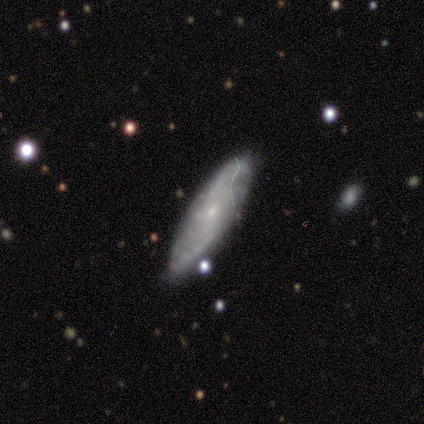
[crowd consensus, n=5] smooth_or_featured: smooth (p=0.40) [tied with: featured or disk p=0.40]
how_rounded: in between (p=0.50) [tied with: cigar-shaped p=0.50]
merging: none (p=1.00)